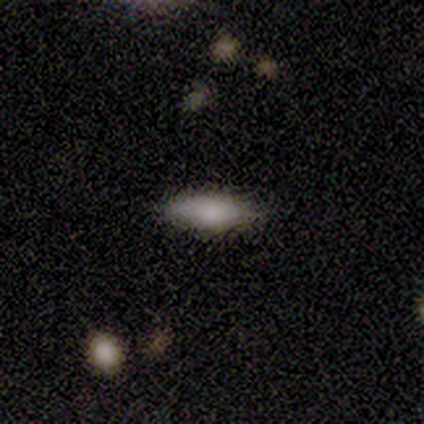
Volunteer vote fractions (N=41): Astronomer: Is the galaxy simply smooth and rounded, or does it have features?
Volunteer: smooth — 68%.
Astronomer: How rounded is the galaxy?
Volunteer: in between — 75%.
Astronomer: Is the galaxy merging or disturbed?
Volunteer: none — 85%.